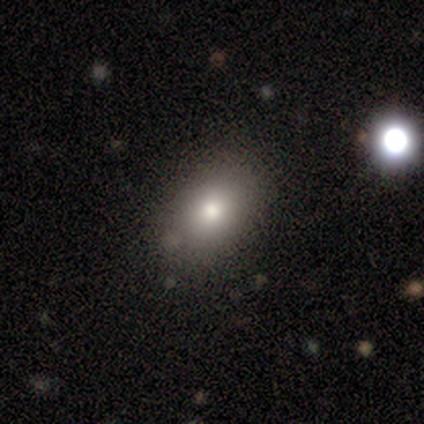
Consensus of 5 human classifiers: Morphology: type=smooth (100%); roundness=in between (60%); merging=none (100%).